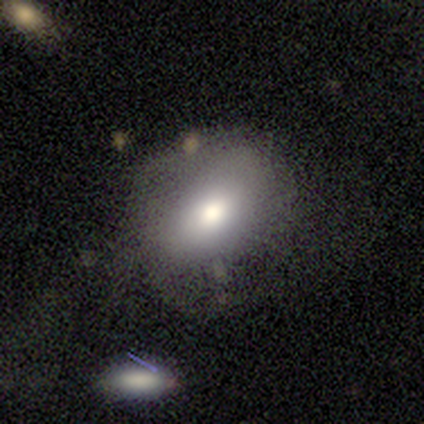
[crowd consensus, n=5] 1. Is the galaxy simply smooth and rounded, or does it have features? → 80% smooth, 20% star or artifact, 0% featured or disk.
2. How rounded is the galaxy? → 100% in between, 0% round, 0% cigar-shaped.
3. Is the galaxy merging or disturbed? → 75% none, 25% major disturbance, 0% minor disturbance, 0% merger.